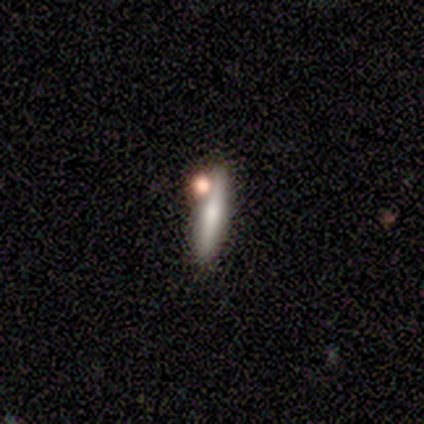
Smooth or featured: smooth — 100%
How rounded: cigar-shaped — 100%
Merging: none — 50% (minor disturbance — 25%)